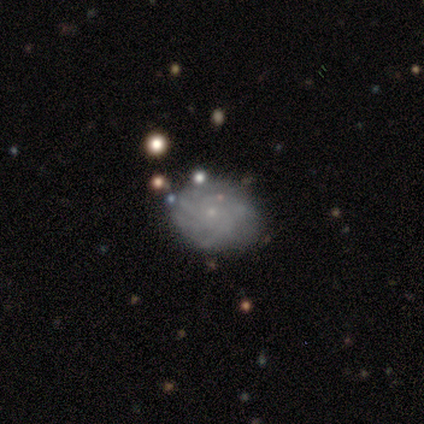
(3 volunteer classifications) Q: Smooth or featured?
A: star or artifact (67%); runner-up: featured or disk (33%)